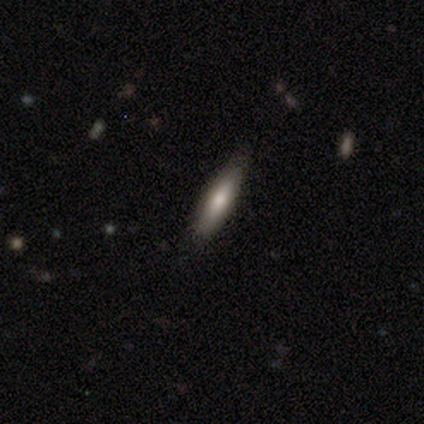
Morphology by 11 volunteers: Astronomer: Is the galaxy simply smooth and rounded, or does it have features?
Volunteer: smooth — 82%.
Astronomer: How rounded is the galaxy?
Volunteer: cigar-shaped — 89%.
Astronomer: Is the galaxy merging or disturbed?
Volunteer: none — 80%.